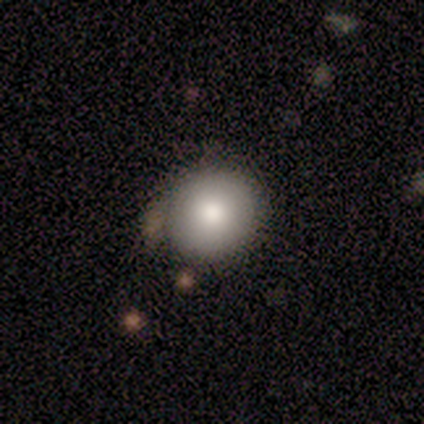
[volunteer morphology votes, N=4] A smooth galaxy with no disk features (100%) that is round (50%, tied with in between). Merging: none (75%).